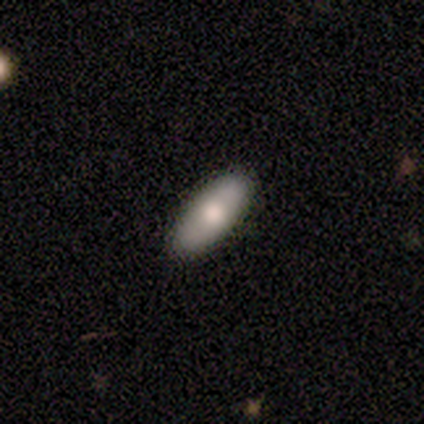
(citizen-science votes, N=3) Smooth or featured? smooth (67%)
How rounded? in between (100%)
Merging? none (67%)